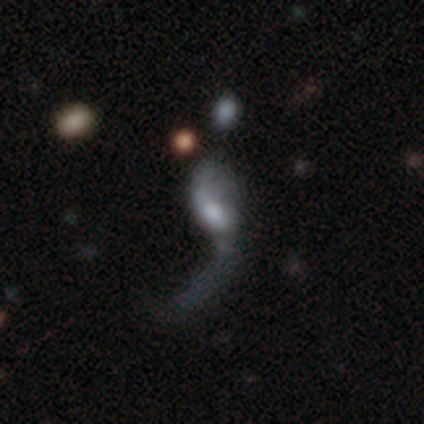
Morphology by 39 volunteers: Q: Smooth or featured?
A: featured or disk (72%); runner-up: smooth (15%)
Q: Edge-on disk?
A: no (96%); runner-up: yes (4%)
Q: Bar?
A: no (67%); runner-up: weak (33%)
Q: Spiral arms?
A: yes (74%); runner-up: no (26%)
Q: Spiral winding?
A: loose (100%)
Q: Spiral arm count?
A: 1 (50%); runner-up: 2 (40%)
Q: Bulge size?
A: moderate (33%); runner-up: large (26%)
Q: Merging?
A: major disturbance (56%); runner-up: none (24%)